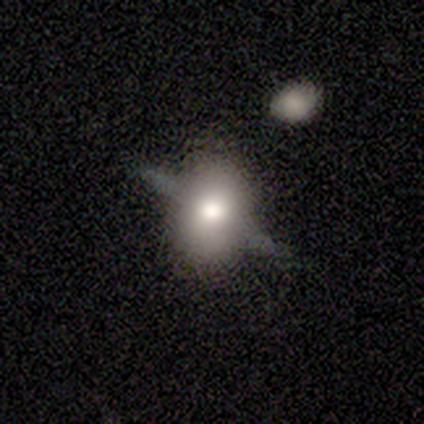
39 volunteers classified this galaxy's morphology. featured or disk 51%, smooth 36%, star or artifact 13%. Down the decision tree: edge-on disk — yes (80%); edge-on bulge — rounded (88%); merging — none (65%).